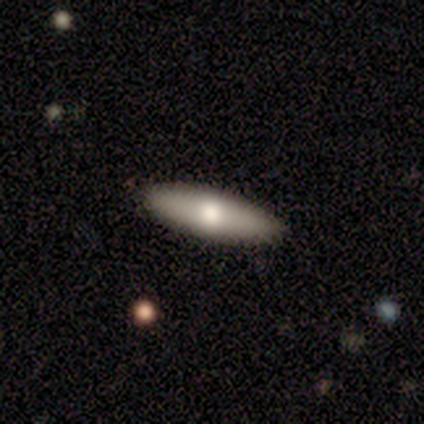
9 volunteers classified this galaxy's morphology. A smooth galaxy with no disk features (78%) that is in between round and cigar-shaped (71%).

Vote fractions:
- Smooth or featured? smooth: 78% / featured or disk: 22% / star or artifact: 0%
- How rounded? in between: 71% / cigar-shaped: 29% / round: 0%
- Merging? none: 100% / minor disturbance: 0% / major disturbance: 0% / merger: 0%